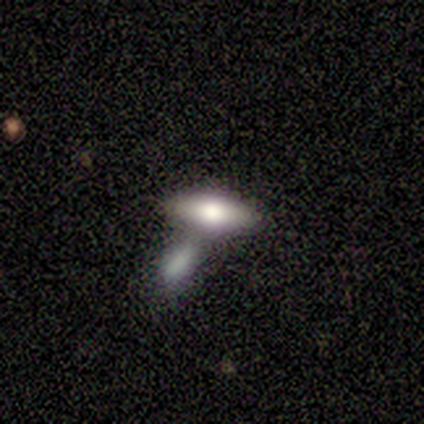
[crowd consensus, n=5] This is clearly a smooth galaxy (100%). How rounded: clearly in between (80%). Merging: likely merger (60%).